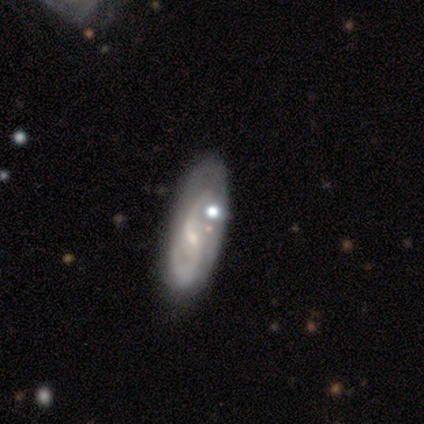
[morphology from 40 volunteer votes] featured or disk 78%, smooth 18%, star or artifact 5%. Down the decision tree: edge-on disk — no (97%); bar — weak (57%); spiral arms — yes (100%); spiral arm count — 2 (83%); spiral winding — medium (57%); bulge size — small (90%); merging — none (61%).